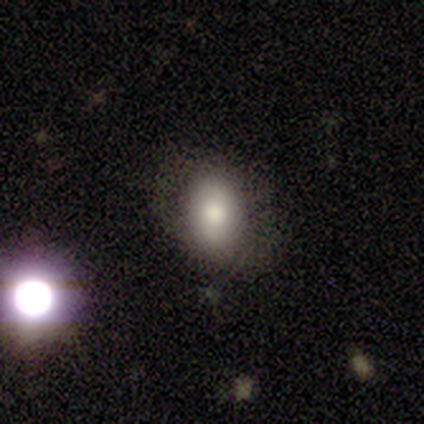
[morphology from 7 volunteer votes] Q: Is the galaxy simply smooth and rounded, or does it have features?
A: featured or disk — 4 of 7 (57%).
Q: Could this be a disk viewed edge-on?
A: no — 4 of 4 (100%).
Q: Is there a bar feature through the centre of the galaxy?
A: no — 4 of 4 (100%).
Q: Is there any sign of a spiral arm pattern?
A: yes — 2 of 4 (50%, tied with no).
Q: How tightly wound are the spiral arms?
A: tight — 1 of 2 (50%, tied with medium).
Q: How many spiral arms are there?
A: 2 — 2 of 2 (100%).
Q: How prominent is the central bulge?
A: moderate — 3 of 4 (75%).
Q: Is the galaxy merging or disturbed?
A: none — 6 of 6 (100%).